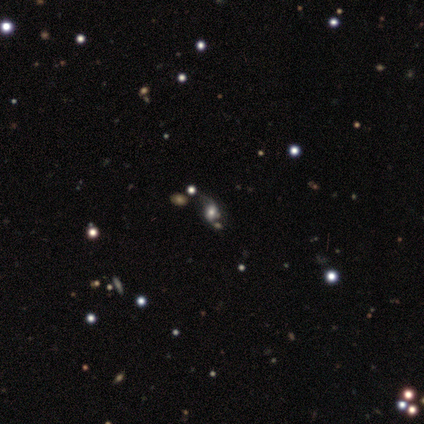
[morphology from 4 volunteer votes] featured or disk 50%, smooth 25%, star or artifact 25%. Down the decision tree: edge-on disk — no (100%); bar — weak (50%, tied with no); spiral arms — yes (50%, tied with no); spiral arm count — 2 (100%); spiral winding — loose (100%); bulge size — moderate (100%); merging — none (67%).